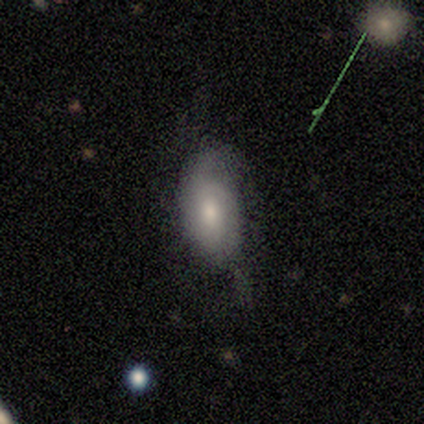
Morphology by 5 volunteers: Q: Smooth or featured?
A: smooth (60%); runner-up: featured or disk (40%)
Q: How rounded?
A: in between (100%)
Q: Merging?
A: major disturbance (60%); runner-up: minor disturbance (40%)